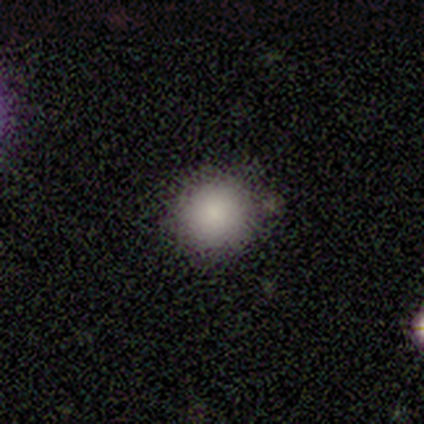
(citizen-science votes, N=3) Q: Smooth or featured?
A: smooth (67%); runner-up: star or artifact (33%)
Q: How rounded?
A: round (100%)
Q: Merging?
A: none (100%)